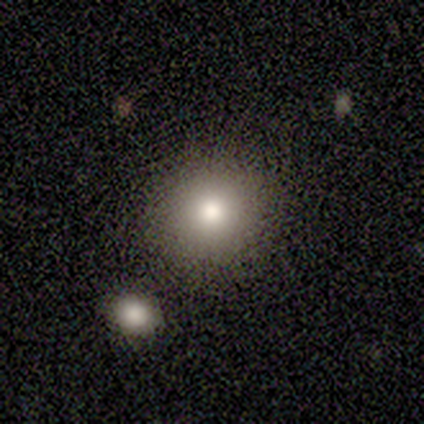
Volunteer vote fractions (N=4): Smooth or featured?
  - smooth: 100% *
  - featured or disk: 0%
  - star or artifact: 0%
How rounded?
  - round: 100% *
  - in between: 0%
  - cigar-shaped: 0%
Merging?
  - none: 100% *
  - minor disturbance: 0%
  - major disturbance: 0%
  - merger: 0%